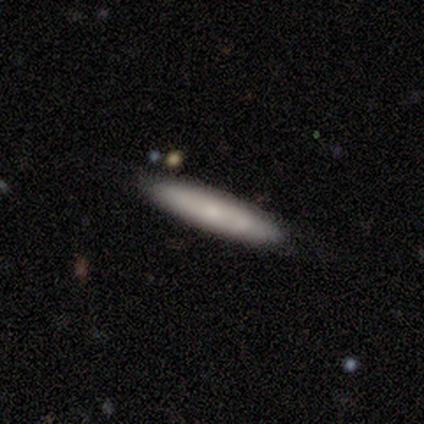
Smooth or featured: smooth — 80% (featured or disk — 20%)
How rounded: cigar-shaped — 75% (in between — 25%)
Merging: none — 100%